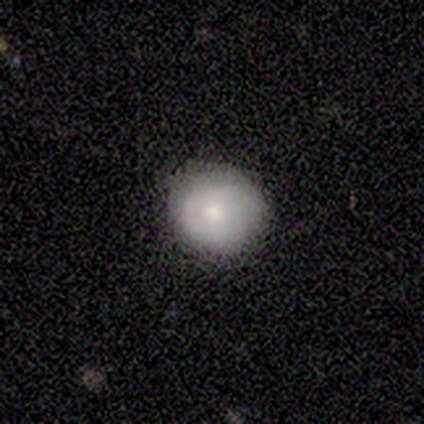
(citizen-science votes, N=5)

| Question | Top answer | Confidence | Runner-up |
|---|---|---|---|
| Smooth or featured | smooth | 100% | — |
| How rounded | round | 80% | in between (20%) |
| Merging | none | 80% | minor disturbance (20%) |